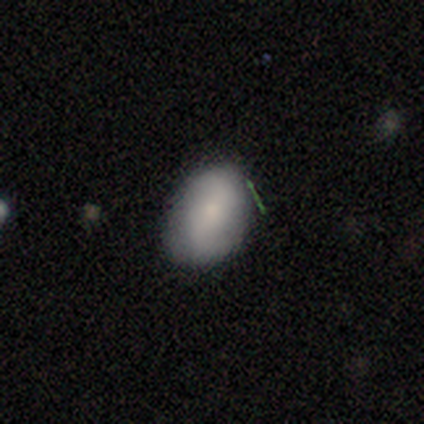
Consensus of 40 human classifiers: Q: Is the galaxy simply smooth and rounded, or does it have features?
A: smooth — 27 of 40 (68%).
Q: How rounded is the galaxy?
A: in between — 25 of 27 (93%).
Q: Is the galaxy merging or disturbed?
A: none — 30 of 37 (81%).